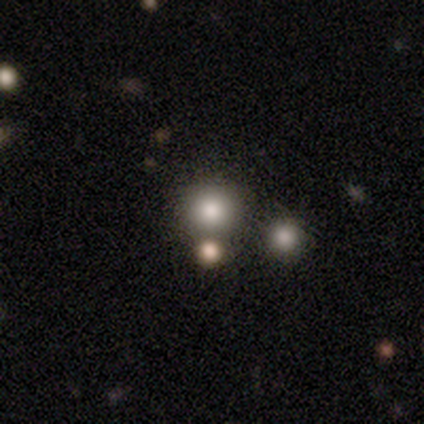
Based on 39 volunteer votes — smooth_or_featured: smooth (p=0.67) [alt: star or artifact p=0.18]
how_rounded: round (p=0.96) [alt: in between p=0.04]
merging: none (p=0.78) [alt: merger p=0.16]